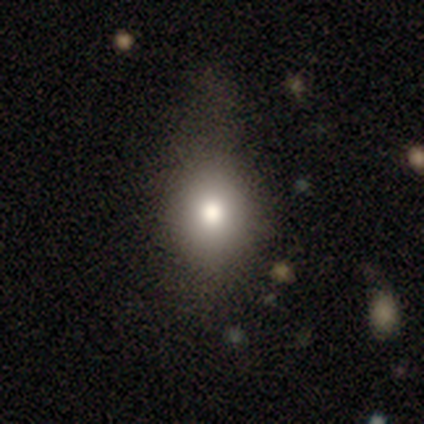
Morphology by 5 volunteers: This is clearly a smooth galaxy (80%). How rounded: likely round (75%). Merging: likely none (60%).